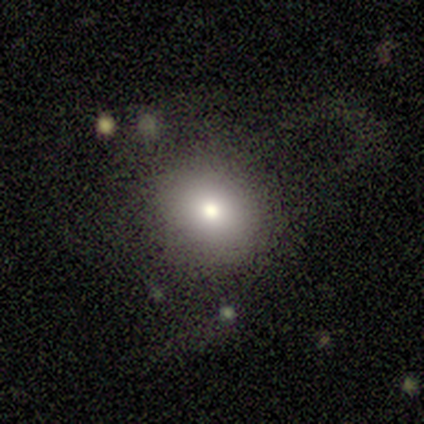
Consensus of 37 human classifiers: smooth 73%, star or artifact 19%, featured or disk 8%. Down the decision tree: how rounded — round (70%); merging — none (60%).